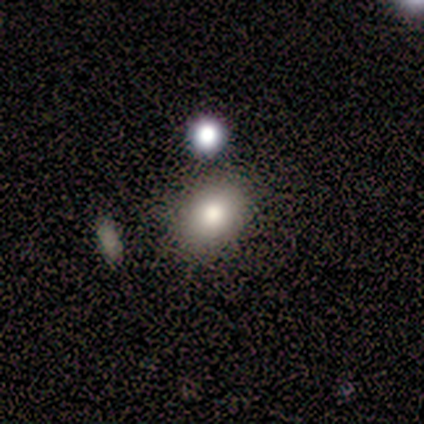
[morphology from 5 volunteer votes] Smooth or featured? 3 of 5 (60%) said smooth. How rounded? 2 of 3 (67%) said round. Merging? 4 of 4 (100%) said none.